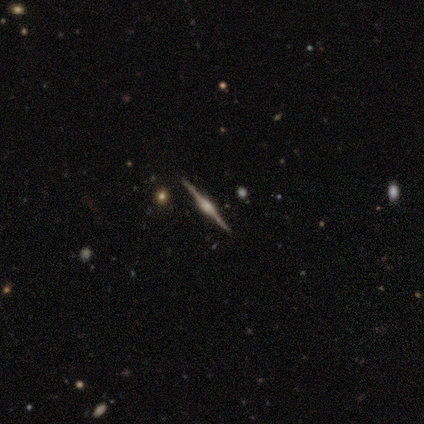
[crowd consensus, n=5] Volunteers were most divided on "edge-on bulge" (2-way tie): boxy: 50%, rounded: 50%, none: 0%. More confident: edge-on disk — yes (100%); merging — none (100%); smooth or featured — featured or disk (80%).